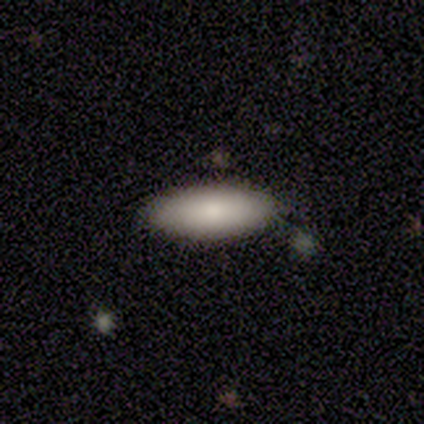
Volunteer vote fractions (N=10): This is clearly a smooth galaxy (90%). How rounded: clearly in between (100%). Merging: clearly none (90%).